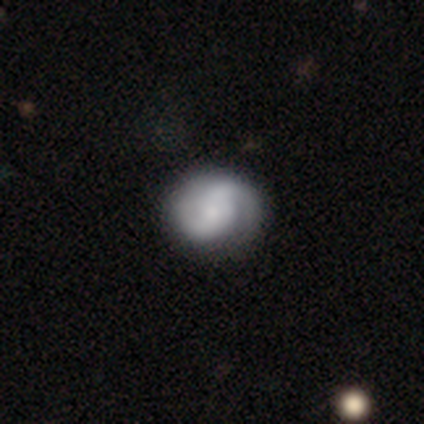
Overall: featured or disk (100%). Edge-on disk: no (100%). Bar: weak (80%). Spiral arms: yes (80%). Spiral arm count: 2 (100%). Spiral winding: tight (50%; medium 25%). Bulge size: moderate (60%; large 20%). Merging: none (100%).